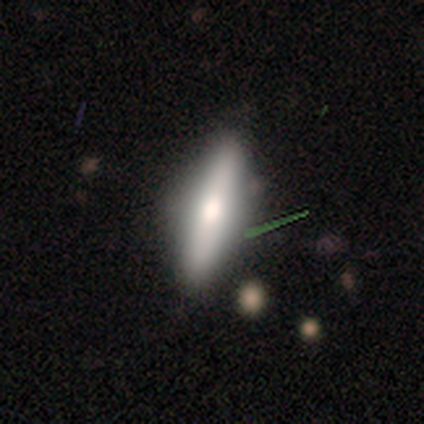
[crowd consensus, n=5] Smooth or featured?
  - smooth: 60% *
  - featured or disk: 40%
  - star or artifact: 0%
How rounded?
  - cigar-shaped: 67% *
  - in between: 33%
  - round: 0%
Merging?
  - none: 100% *
  - minor disturbance: 0%
  - major disturbance: 0%
  - merger: 0%